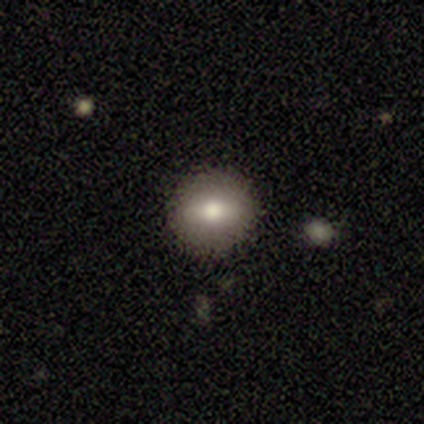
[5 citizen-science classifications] This is clearly a smooth galaxy (100%). How rounded: clearly round (80%). Merging: clearly none (100%).